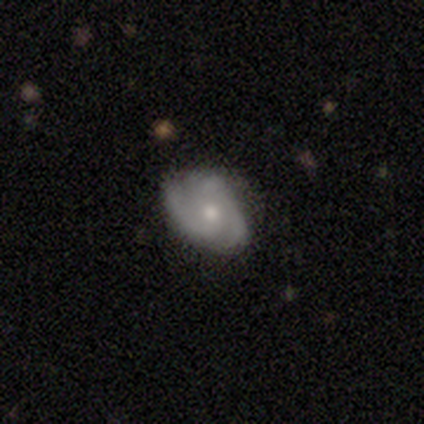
A featured or disk galaxy (83%) with no bar (73%), 3 (46%) tight (46%, tied with medium) spiral arms (87%) and a moderate central bulge (53%).

Vote fractions:
- Smooth or featured? featured or disk: 83% / smooth: 17% / star or artifact: 0%
- Edge-on disk? no: 100% / yes: 0%
- Bar? no: 73% / weak: 27% / strong: 0%
- Spiral arms? yes: 87% / no: 13%
- Spiral winding? tight: 46% (tied) / medium: 46% (tied) / loose: 8%
- Spiral arm count? 3: 46% / 2: 23% / can't tell: 23% / 4: 8% / 1: 0% / more than 4: 0%
- Bulge size? moderate: 53% / small: 47% / dominant: 0% / large: 0% / none: 0%
- Merging? none: 78% / minor disturbance: 22% / major disturbance: 0% / merger: 0%